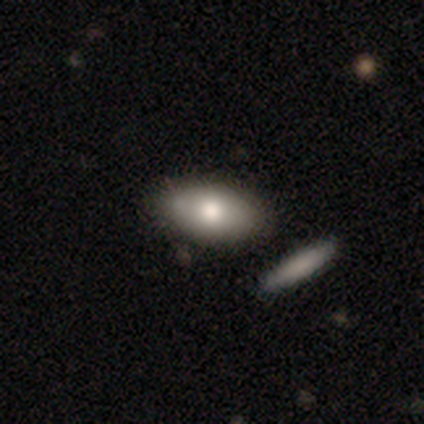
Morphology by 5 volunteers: smooth_or_featured: smooth (p=1.00)
how_rounded: in between (p=0.80) [alt: round p=0.20]
merging: none (p=0.60) [alt: minor disturbance p=0.20]